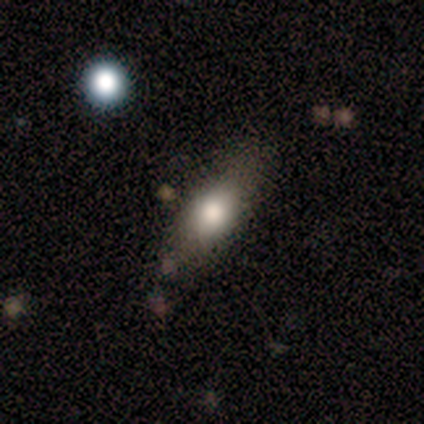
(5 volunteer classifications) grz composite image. It shows a smooth galaxy with no disk features (80%) that is in between round and cigar-shaped (100%). Merging: none (80%).